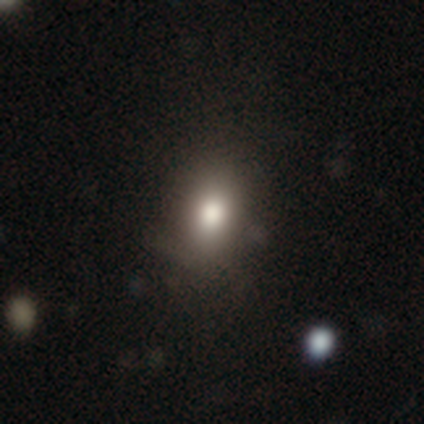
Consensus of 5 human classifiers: Smooth or featured? 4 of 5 (80%) said smooth. How rounded? 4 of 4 (100%) said in between. Merging? 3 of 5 (60%) said none.